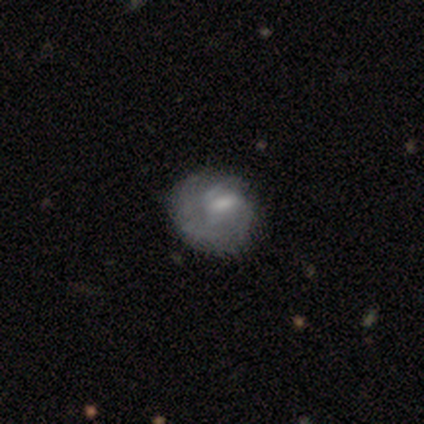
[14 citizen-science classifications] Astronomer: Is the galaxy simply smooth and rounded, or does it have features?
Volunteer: smooth — 50% (runner-up: featured or disk, 36%).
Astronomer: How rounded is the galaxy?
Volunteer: round — 86%.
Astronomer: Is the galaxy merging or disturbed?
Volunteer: none — 83%.